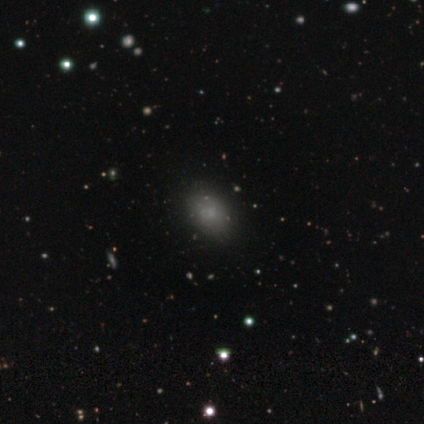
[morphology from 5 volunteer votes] Smooth or featured? smooth (60%)
How rounded? in between (67%)
Merging? none (100%)